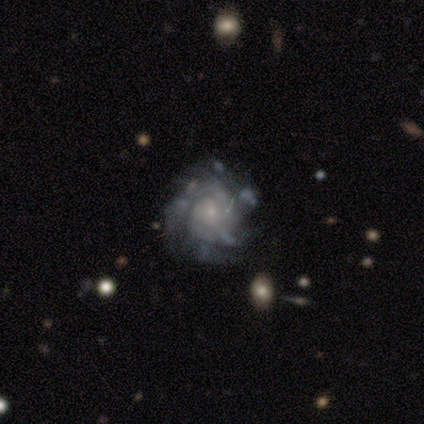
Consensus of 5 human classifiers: smooth_or_featured: featured or disk (p=0.80) [alt: star or artifact p=0.20]
disk_edge_on: no (p=1.00)
bar: no (p=0.75) [alt: weak p=0.25]
has_spiral_arms: yes (p=1.00)
spiral_winding: tight (p=0.75) [alt: medium p=0.25]
spiral_arm_count: 2 (p=0.50) [alt: more than 4 p=0.25]
bulge_size: small (p=0.75) [alt: moderate p=0.25]
merging: minor disturbance (p=0.50) [alt: none p=0.25]